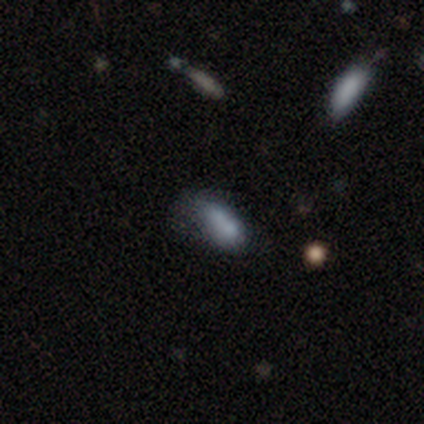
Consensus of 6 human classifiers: Q: Smooth or featured?
A: smooth (67%); runner-up: star or artifact (33%)
Q: How rounded?
A: in between (75%); runner-up: cigar-shaped (25%)
Q: Merging?
A: minor disturbance (50%); runner-up: none (25%)